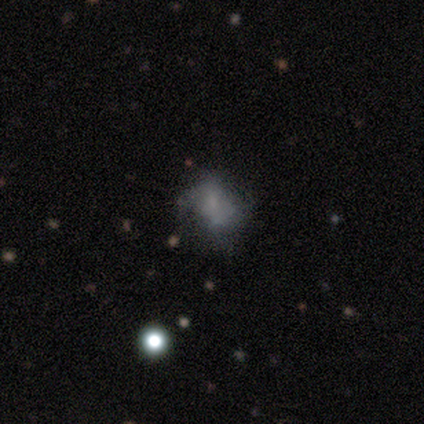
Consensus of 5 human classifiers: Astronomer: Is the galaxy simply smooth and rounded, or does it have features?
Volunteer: smooth — 60% (runner-up: featured or disk, 40%).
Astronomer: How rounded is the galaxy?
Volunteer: round — 67%.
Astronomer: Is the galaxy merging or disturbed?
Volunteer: minor disturbance — 60% (runner-up: none, 40%).